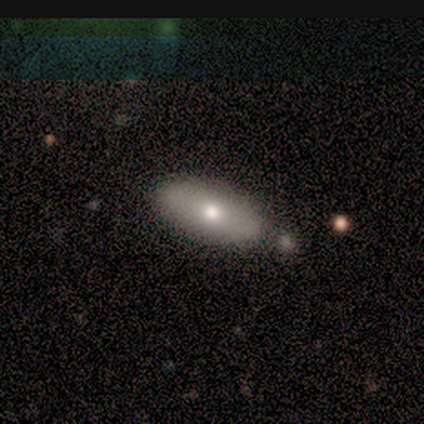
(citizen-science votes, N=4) This is possibly a smooth galaxy (50%, tied with featured or disk). How rounded: clearly cigar-shaped (100%). Merging: possibly none (50%, tied with merger).